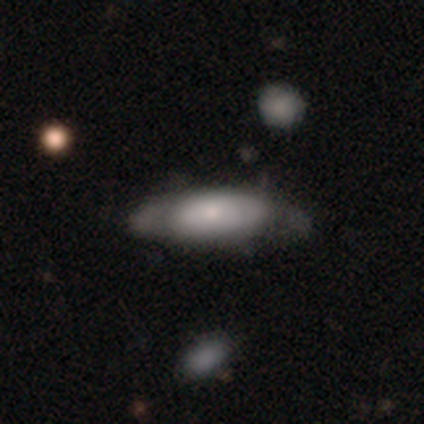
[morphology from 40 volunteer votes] Smooth or featured? smooth (68%)
How rounded? in between (78%)
Merging? none (38%)